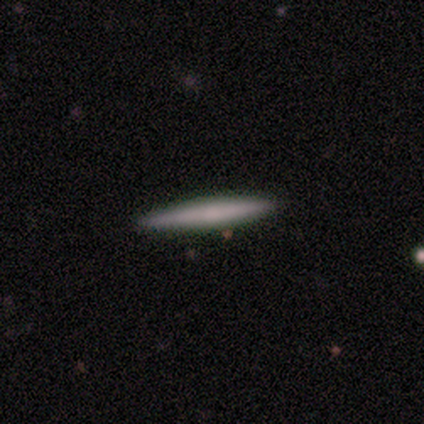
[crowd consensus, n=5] smooth-or-featured: smooth: 100% | featured or disk: 0% | star or artifact: 0%
  how-rounded: cigar-shaped: 100% | round: 0% | in between: 0%
  merging: none: 100% | minor disturbance: 0% | major disturbance: 0% | merger: 0%